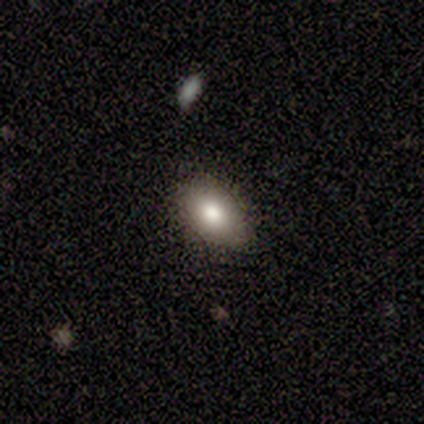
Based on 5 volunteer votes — Overall: smooth (100%). How rounded: in between (100%). Merging: none (60%; minor disturbance 40%).